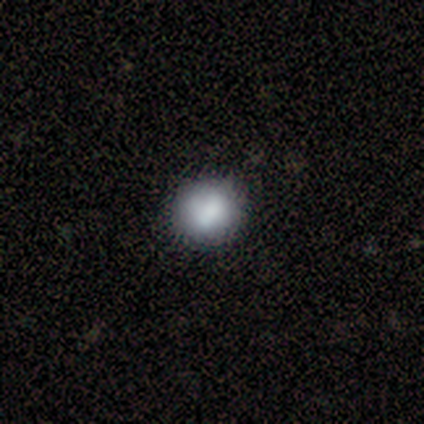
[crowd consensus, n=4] smooth 100%, featured or disk 0%, star or artifact 0%. Down the decision tree: how rounded — round (100%); merging — none (100%).